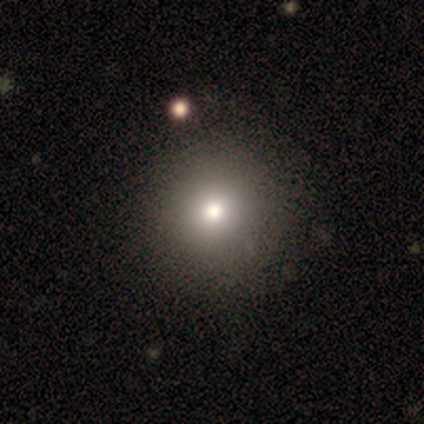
Smooth or featured?
  - smooth: 69% *
  - featured or disk: 18%
  - star or artifact: 13%
How rounded?
  - round: 96% *
  - in between: 4%
  - cigar-shaped: 0%
Merging?
  - none: 65% *
  - minor disturbance: 9%
  - merger: 3%
  - major disturbance: 0%